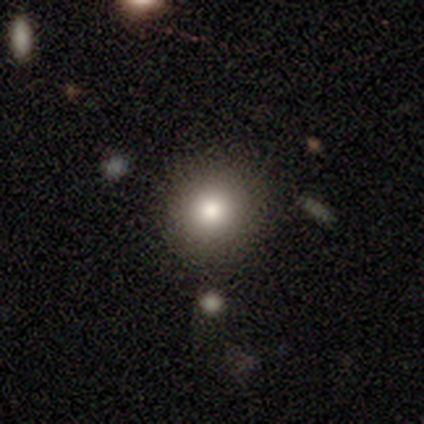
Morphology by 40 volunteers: Q: Smooth or featured?
A: smooth (85%); runner-up: star or artifact (10%)
Q: How rounded?
A: round (100%)
Q: Merging?
A: none (89%); runner-up: minor disturbance (11%)